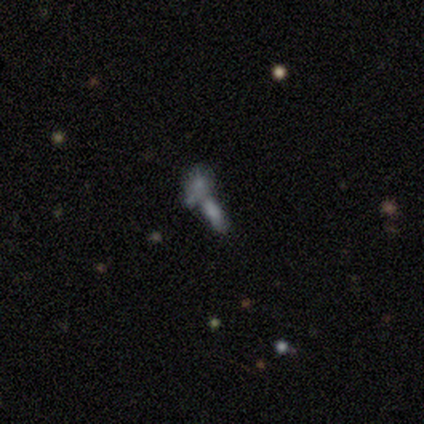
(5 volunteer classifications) Smooth or featured? smooth (100%)
How rounded? in between (60%)
Merging? merger (80%)